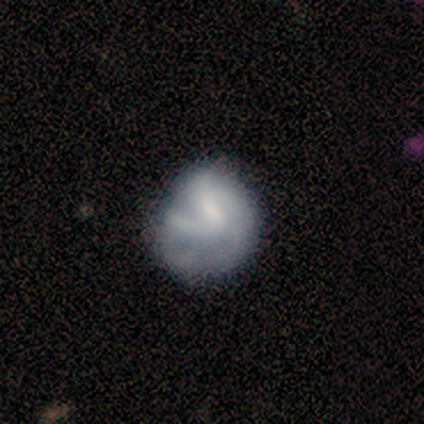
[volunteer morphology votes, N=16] Smooth or featured? 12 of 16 (75%) said featured or disk. Edge-on disk? 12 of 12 (100%) said no. Bar? 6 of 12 (50%) said weak. Spiral arms? 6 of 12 (50%, tied with no) said yes. Spiral winding? 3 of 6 (50%) said loose. Spiral arm count? 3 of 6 (50%, tied with can't tell) said 2. Bulge size? 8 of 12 (67%) said none. Merging? 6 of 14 (43%) said none.